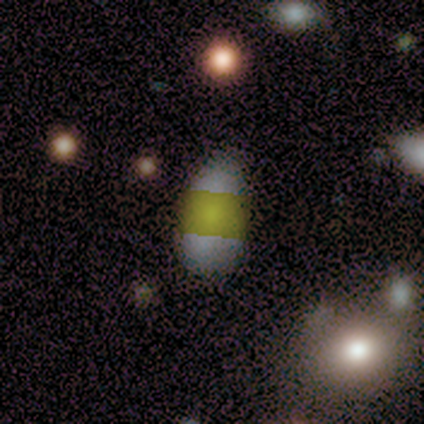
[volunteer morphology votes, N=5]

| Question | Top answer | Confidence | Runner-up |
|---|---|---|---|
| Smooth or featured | smooth | 40% | tied: star or artifact (40%) |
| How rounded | in between | 100% | — |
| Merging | none | 67% | minor disturbance (33%) |